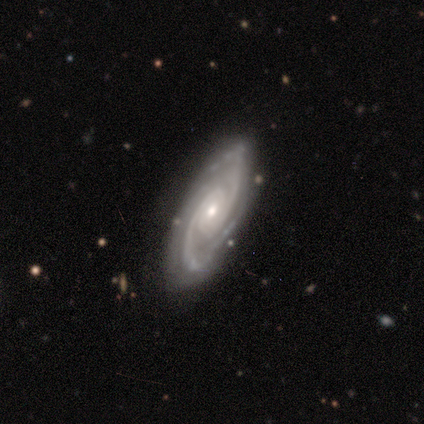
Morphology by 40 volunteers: smooth_or_featured: featured or disk (p=0.78) [alt: smooth p=0.12]
disk_edge_on: no (p=1.00)
bar: no (p=0.58) [alt: weak p=0.35]
has_spiral_arms: yes (p=1.00)
spiral_winding: tight (p=0.52) [alt: medium p=0.39]
spiral_arm_count: 2 (p=0.71) [alt: 4 p=0.13]
bulge_size: moderate (p=0.52) [alt: small p=0.48]
merging: none (p=0.75) [alt: minor disturbance p=0.14]